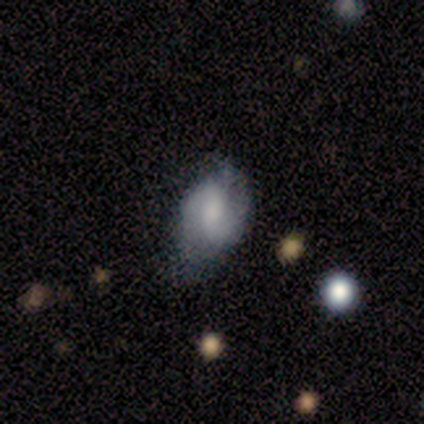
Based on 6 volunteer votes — smooth_or_featured: smooth (p=0.50) [tied with: featured or disk p=0.50]
how_rounded: in between (p=1.00)
merging: none (p=0.50) [alt: minor disturbance p=0.33]